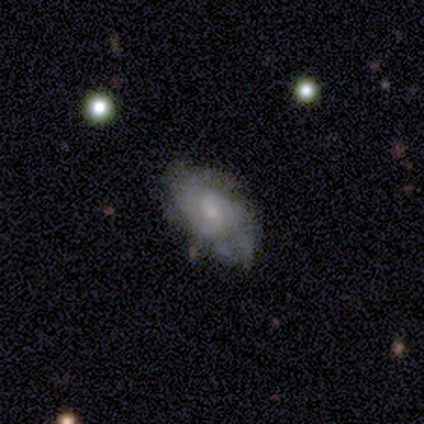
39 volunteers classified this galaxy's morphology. Smooth or featured? 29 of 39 (74%) said featured or disk. Edge-on disk? 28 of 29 (97%) said no. Bar? 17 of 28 (61%) said no. Spiral arms? 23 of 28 (82%) said yes. Spiral winding? 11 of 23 (48%) said tight. Spiral arm count? 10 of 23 (43%) said 2. Bulge size? 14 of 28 (50%) said small. Merging? 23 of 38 (61%) said none.